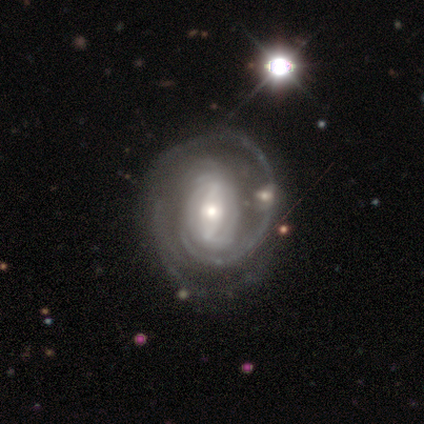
smooth_or_featured: featured or disk (p=0.93) [alt: star or artifact p=0.07]
disk_edge_on: no (p=1.00)
bar: weak (p=0.54) [alt: strong p=0.23]
has_spiral_arms: yes (p=0.92) [alt: no p=0.08]
spiral_winding: tight (p=0.67) [alt: medium p=0.25]
spiral_arm_count: 2 (p=0.50) [alt: can't tell p=0.25]
bulge_size: moderate (p=0.69) [alt: small p=0.23]
merging: none (p=0.54) [alt: minor disturbance p=0.23]